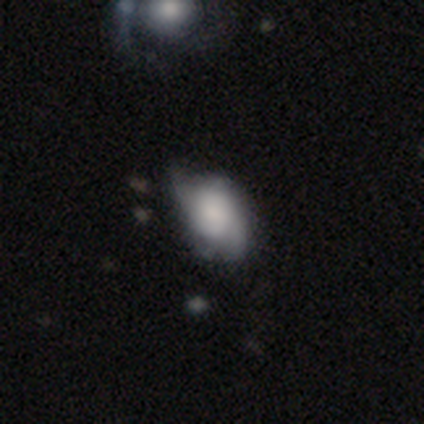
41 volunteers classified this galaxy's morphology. Volunteers were most divided on "spiral winding" (2-way tie): medium: 39%, loose: 39%, tight: 22%; "bulge size" (2-way tie): large: 27%, moderate: 27%, small: 23%, none: 23%, dominant: 0%. Remaining: edge-on disk — no (100%); spiral arms — yes (82%); spiral arm count — can't tell (67%); bar — no (59%); smooth or featured — featured or disk (54%); merging — minor disturbance (39%).